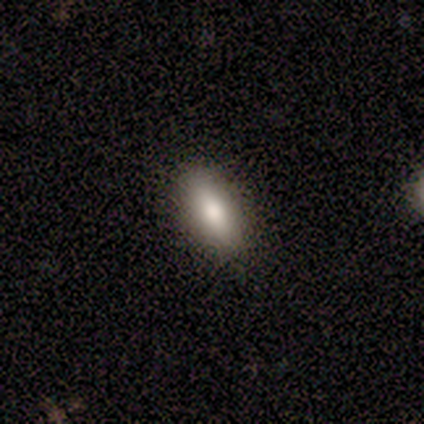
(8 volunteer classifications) Overall: smooth (62%; featured or disk 38%). How rounded: in between (80%). Merging: none (88%).